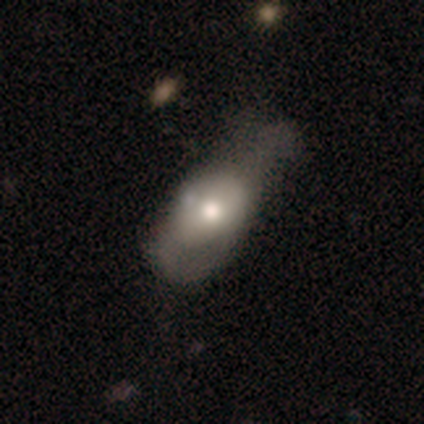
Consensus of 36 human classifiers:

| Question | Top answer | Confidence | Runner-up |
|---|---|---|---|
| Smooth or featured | smooth | 64% | featured or disk (33%) |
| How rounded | in between | 91% | cigar-shaped (9%) |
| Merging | minor disturbance | 37% | none (31%) |